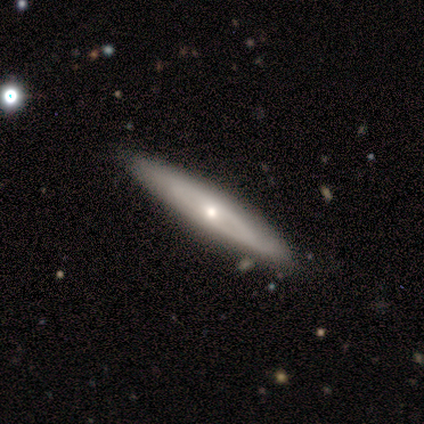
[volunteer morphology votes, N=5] type=smooth (40%, tied with featured or disk); roundness=cigar-shaped (100%); merging=none (100%).